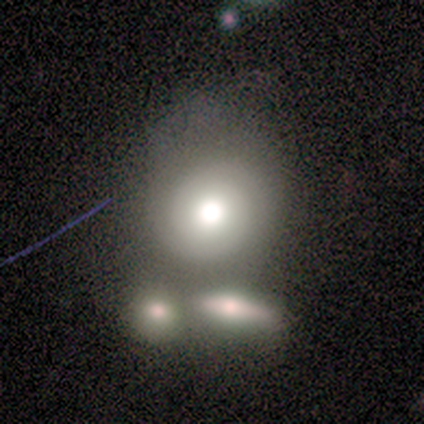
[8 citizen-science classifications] smooth 62%, featured or disk 38%, star or artifact 0%. Down the decision tree: how rounded — in between (60%); merging — none (38%).